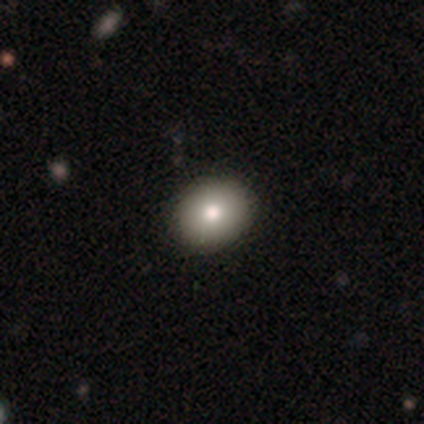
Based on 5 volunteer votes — Volunteers were most divided on "smooth or featured": smooth: 60%, featured or disk: 40%, star or artifact: 0%. More confident: how rounded — round (100%); merging — none (60%).